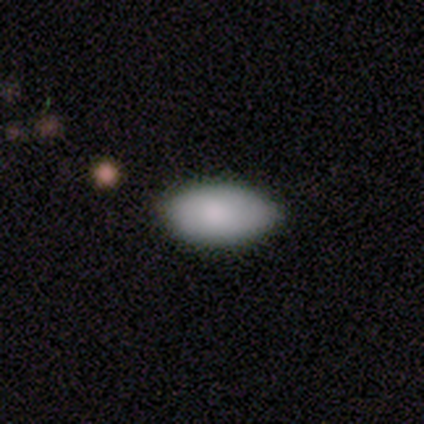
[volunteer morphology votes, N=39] smooth-or-featured: smooth: 90% | star or artifact: 8% | featured or disk: 3%
  how-rounded: in between: 97% | round: 3% | cigar-shaped: 0%
  merging: none: 78% | minor disturbance: 19% | merger: 3% | major disturbance: 0%